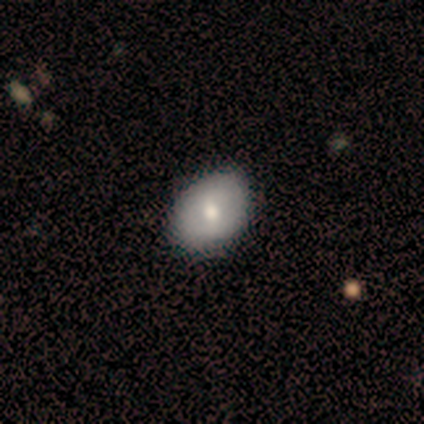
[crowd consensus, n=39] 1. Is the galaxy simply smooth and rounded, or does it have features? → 72% smooth, 28% featured or disk, 0% star or artifact.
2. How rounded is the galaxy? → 54% in between, 46% round, 0% cigar-shaped.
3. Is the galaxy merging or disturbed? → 46% none, 10% minor disturbance, 3% major disturbance, 0% merger.